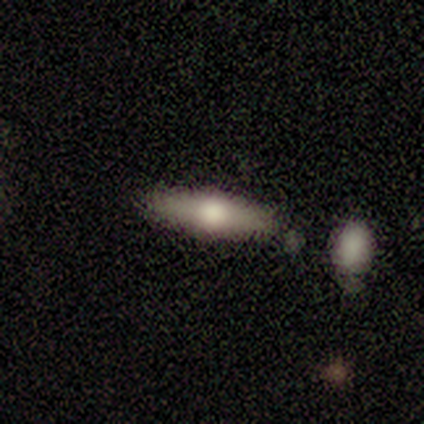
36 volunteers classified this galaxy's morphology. A featured or disk galaxy (56%) viewed edge-on (90%) with a rounded central bulge (94%).

Vote fractions:
- Smooth or featured? featured or disk: 56% / smooth: 44% / star or artifact: 0%
- Edge-on disk? yes: 90% / no: 10%
- Edge-on bulge? rounded: 94% / none: 6% / boxy: 0%
- Merging? none: 75% / minor disturbance: 19% / merger: 6% / major disturbance: 0%